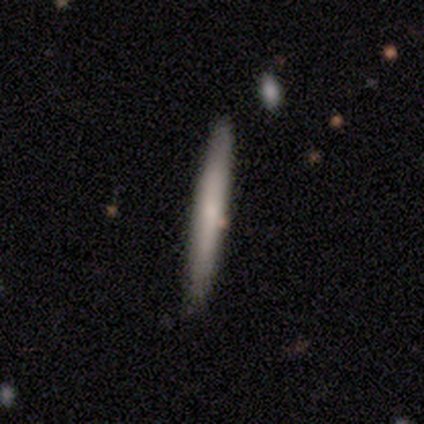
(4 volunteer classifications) Volunteers were most divided on "smooth or featured" (2-way tie): smooth: 50%, featured or disk: 50%, star or artifact: 0%. More confident: how rounded — cigar-shaped (100%); merging — none (75%).